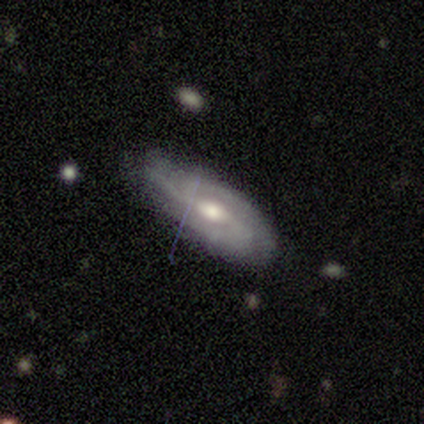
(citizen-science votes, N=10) Smooth or featured? featured or disk (50%)
Edge-on disk? no (60%)
Bar? weak (67%)
Spiral arms? yes (67%)
Spiral winding? medium (100%)
Spiral arm count? 3 (100%)
Bulge size? moderate (67%)
Merging? none (88%)